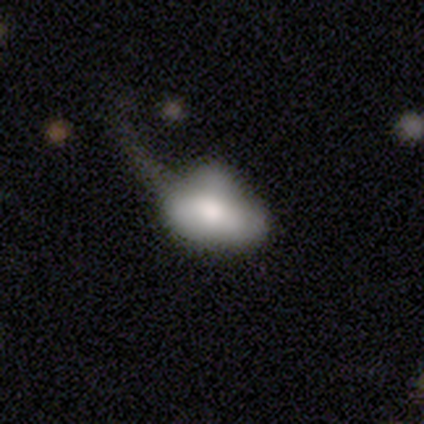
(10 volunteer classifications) Overall: featured or disk (70%; smooth 30%). Edge-on disk: no (100%). Bar: no (86%). Spiral arms: no (100%). Bulge size: moderate (57%). Merging: major disturbance (70%).